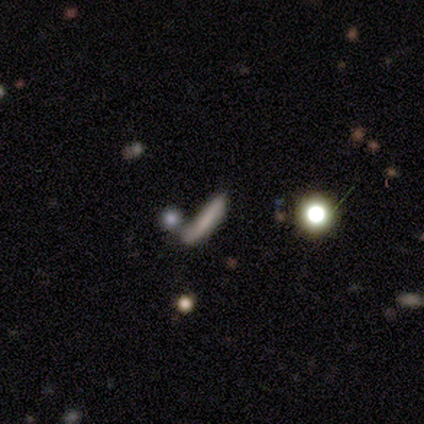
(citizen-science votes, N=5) Smooth or featured?
  - smooth: 80% *
  - featured or disk: 20%
  - star or artifact: 0%
How rounded?
  - cigar-shaped: 75% *
  - in between: 25%
  - round: 0%
Merging?
  - none: 40% * (tied)
  - minor disturbance: 40% * (tied)
  - merger: 20%
  - major disturbance: 0%